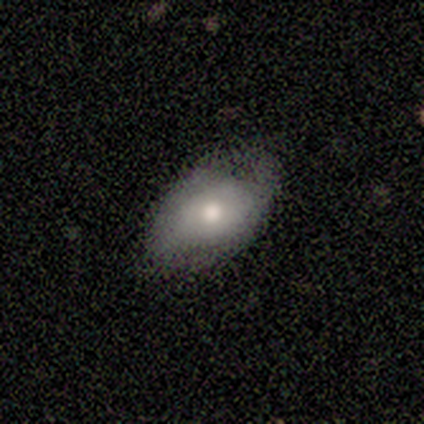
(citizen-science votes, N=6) Smooth or featured? 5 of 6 (83%) said smooth. How rounded? 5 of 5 (100%) said in between. Merging? 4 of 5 (80%) said none.